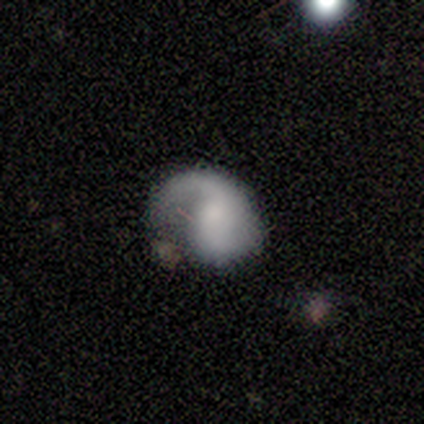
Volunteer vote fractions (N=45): A featured or disk galaxy (80%) with no bar (81%), 1 (70%) loose (48%) spiral arms (92%) and a small central bulge (31%). Merging: major disturbance (48%).